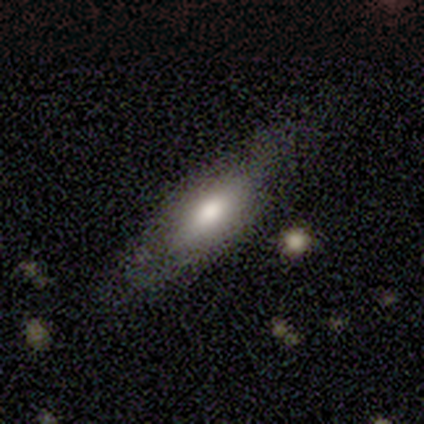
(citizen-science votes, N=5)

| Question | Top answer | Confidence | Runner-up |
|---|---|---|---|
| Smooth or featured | smooth | 80% | featured or disk (20%) |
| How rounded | in between | 75% | cigar-shaped (25%) |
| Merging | none | 100% | — |